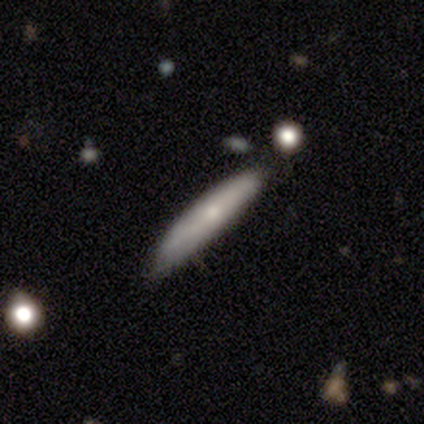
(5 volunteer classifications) smooth 40% (tied), featured or disk 40% (tied), star or artifact 20%. Down the decision tree: how rounded — cigar-shaped (100%); merging — none (100%).